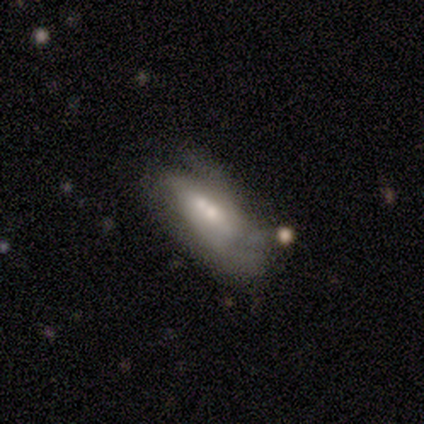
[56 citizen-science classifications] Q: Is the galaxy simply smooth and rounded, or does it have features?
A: smooth — 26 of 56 (46%).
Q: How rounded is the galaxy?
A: in between — 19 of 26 (73%).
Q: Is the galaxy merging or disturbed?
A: merger — 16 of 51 (31%).